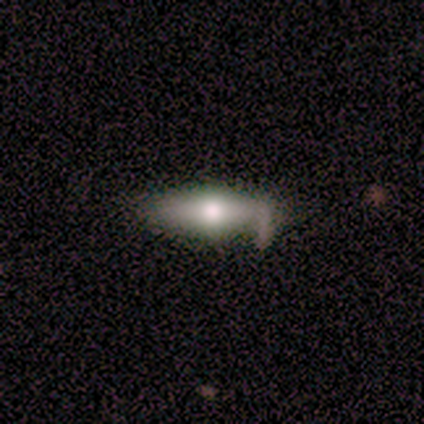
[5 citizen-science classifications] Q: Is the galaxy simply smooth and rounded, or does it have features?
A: featured or disk — 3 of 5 (60%).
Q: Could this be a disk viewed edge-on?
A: yes — 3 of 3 (100%).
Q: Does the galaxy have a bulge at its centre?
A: rounded — 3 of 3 (100%).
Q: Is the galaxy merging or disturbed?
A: none — 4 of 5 (80%).